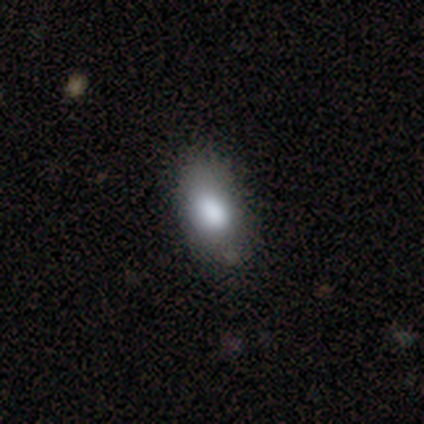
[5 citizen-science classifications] smooth-or-featured: smooth: 60% | featured or disk: 40% | star or artifact: 0%
  how-rounded: in between: 67% | round: 33% | cigar-shaped: 0%
  merging: none: 80% | major disturbance: 20% | minor disturbance: 0% | merger: 0%